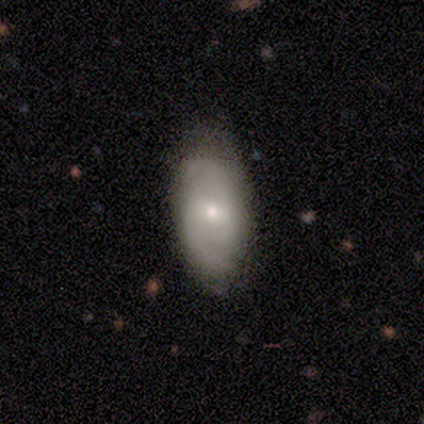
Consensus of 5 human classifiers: Smooth or featured? 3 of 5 (60%) said smooth. How rounded? 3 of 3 (100%) said in between. Merging? 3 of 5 (60%) said none.